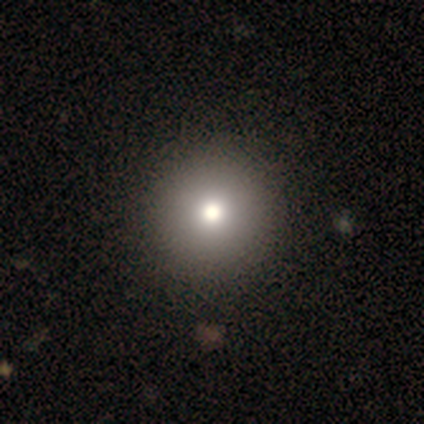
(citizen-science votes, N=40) Overall: smooth (82%). How rounded: round (97%). Merging: none (76%).